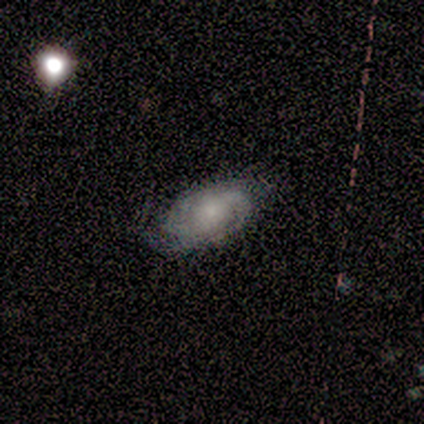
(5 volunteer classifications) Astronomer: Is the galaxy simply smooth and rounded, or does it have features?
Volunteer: featured or disk — 80%.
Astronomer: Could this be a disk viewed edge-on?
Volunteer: no — 100%.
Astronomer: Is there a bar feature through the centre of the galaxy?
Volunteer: weak — 75%.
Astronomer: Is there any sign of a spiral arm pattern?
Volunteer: yes — 100%.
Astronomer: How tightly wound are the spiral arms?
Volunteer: medium — 75%.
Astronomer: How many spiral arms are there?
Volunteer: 2 — 50%.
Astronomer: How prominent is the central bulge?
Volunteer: small — 100%.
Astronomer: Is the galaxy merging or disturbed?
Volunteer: none — 60% (runner-up: minor disturbance, 40%).